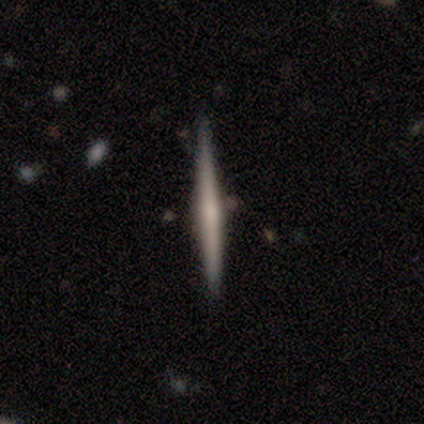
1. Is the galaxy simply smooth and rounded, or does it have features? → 73% featured or disk, 27% smooth, 0% star or artifact.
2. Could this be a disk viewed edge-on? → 100% yes, 0% no.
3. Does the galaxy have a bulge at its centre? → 62% rounded, 38% none, 0% boxy.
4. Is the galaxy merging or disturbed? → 91% none, 9% minor disturbance, 0% major disturbance, 0% merger.